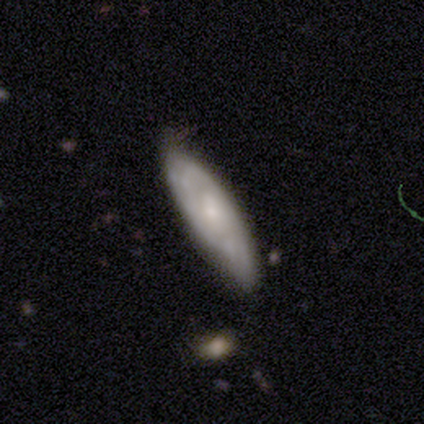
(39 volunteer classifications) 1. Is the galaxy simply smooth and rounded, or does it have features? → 67% featured or disk, 31% smooth, 3% star or artifact.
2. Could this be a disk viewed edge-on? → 77% no, 23% yes.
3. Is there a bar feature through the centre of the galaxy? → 45% no, 40% weak, 15% strong.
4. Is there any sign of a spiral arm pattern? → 85% yes, 15% no.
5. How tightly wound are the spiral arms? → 59% tight, 24% medium, 18% loose.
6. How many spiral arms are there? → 59% can't tell, 29% 2, 6% 3, 6% more than 4, 0% 1, 0% 4.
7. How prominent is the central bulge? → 55% small, 30% moderate, 10% none, 5% large, 0% dominant.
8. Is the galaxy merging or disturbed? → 61% none, 34% minor disturbance, 3% major disturbance, 3% merger.